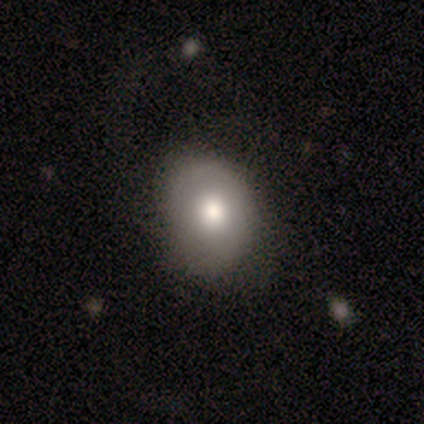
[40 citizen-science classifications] This is likely a smooth galaxy (75%). How rounded: likely round (63%). Merging: likely none (76%).